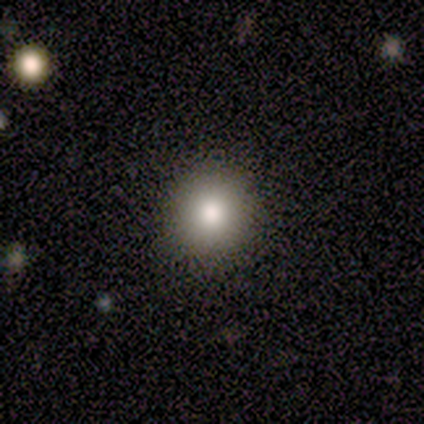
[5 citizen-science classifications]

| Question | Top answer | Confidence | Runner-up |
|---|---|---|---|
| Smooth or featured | smooth | 80% | star or artifact (20%) |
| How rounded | round | 100% | — |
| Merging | none | 100% | — |